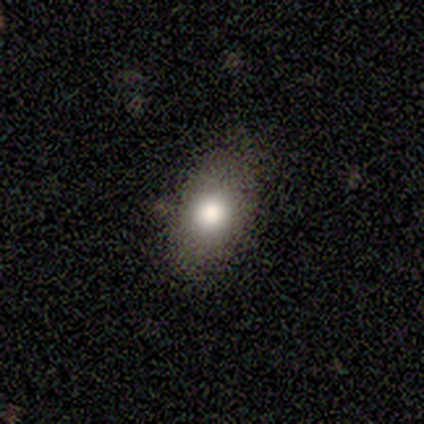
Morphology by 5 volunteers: Overall: featured or disk (40%, tied with star or artifact). Edge-on disk: yes (50%, tied with no). Edge-on bulge: rounded (100%). Merging: none (67%; minor disturbance 33%).